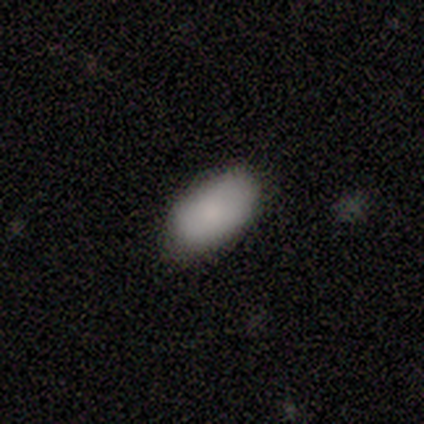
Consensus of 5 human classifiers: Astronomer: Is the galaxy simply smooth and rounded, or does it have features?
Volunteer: smooth — 80%.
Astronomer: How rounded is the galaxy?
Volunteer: in between — 100%.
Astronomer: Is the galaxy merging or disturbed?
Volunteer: none — 100%.